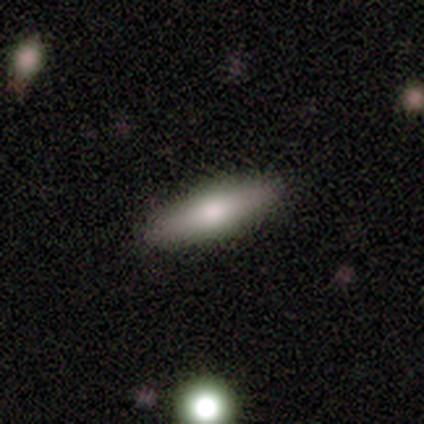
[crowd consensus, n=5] Smooth or featured?
  - smooth: 60% *
  - featured or disk: 20%
  - star or artifact: 20%
How rounded?
  - cigar-shaped: 100% *
  - round: 0%
  - in between: 0%
Merging?
  - none: 100% *
  - minor disturbance: 0%
  - major disturbance: 0%
  - merger: 0%